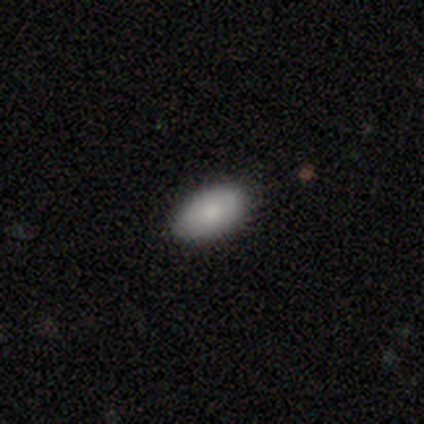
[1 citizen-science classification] This is clearly a smooth galaxy (100%). How rounded: clearly in between (100%). Merging: clearly none (100%).